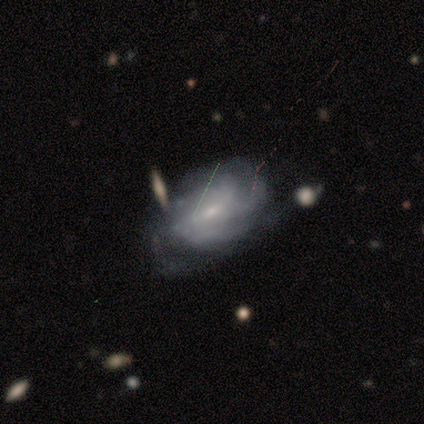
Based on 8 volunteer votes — Morphology: type=featured or disk (88%); edge-on=no (100%); bar=weak (43%); spiral arms=yes (100%); winding=medium (57%); arm count=can't tell (43%); bulge=moderate (57%); merging=none (75%).